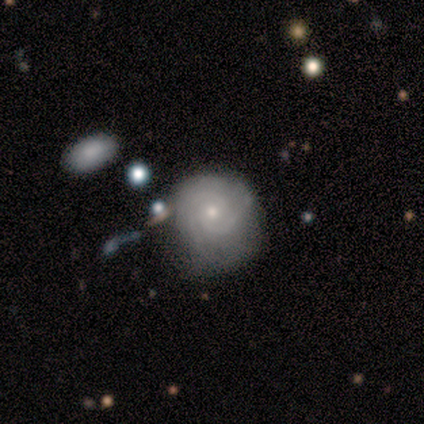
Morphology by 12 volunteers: Smooth or featured? featured or disk (83%)
Edge-on disk? no (100%)
Bar? no (60%)
Spiral arms? yes (100%)
Spiral winding? tight (70%)
Spiral arm count? 2 (60%)
Bulge size? moderate (50%, tied with small)
Merging? none (82%)